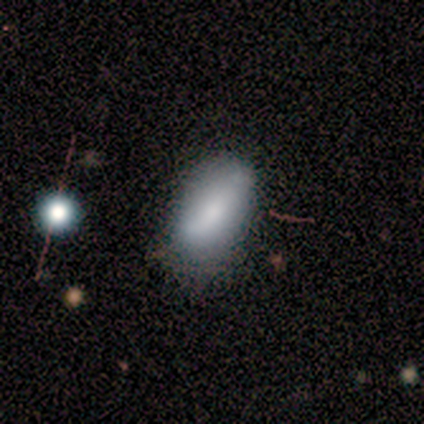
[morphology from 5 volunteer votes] A smooth galaxy with no disk features (80%) that is in between round and cigar-shaped (100%).

Vote fractions:
- Smooth or featured? smooth: 80% / featured or disk: 20% / star or artifact: 0%
- How rounded? in between: 100% / round: 0% / cigar-shaped: 0%
- Merging? none: 80% / minor disturbance: 20% / major disturbance: 0% / merger: 0%